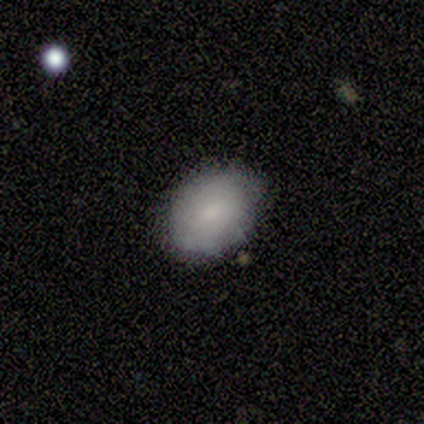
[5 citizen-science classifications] This appears to be a smooth galaxy with no disk features (100%) that is in between round and cigar-shaped (80%). Merging: minor disturbance (60%).